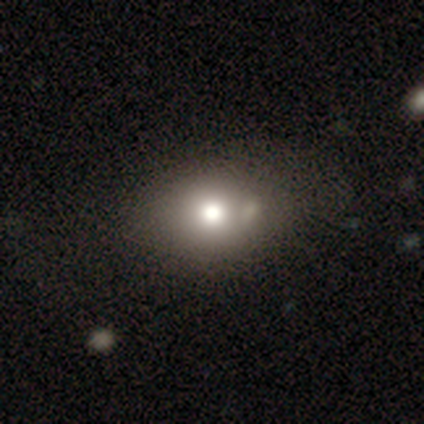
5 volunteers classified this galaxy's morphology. A smooth galaxy with no disk features (80%) that is round (75%).

Vote fractions:
- Smooth or featured? smooth: 80% / star or artifact: 20% / featured or disk: 0%
- How rounded? round: 75% / in between: 25% / cigar-shaped: 0%
- Merging? none: 75% / merger: 25% / minor disturbance: 0% / major disturbance: 0%